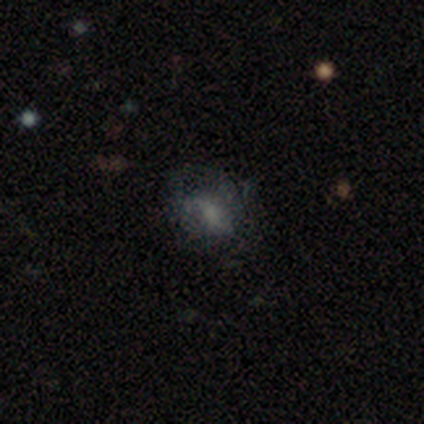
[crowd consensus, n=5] Smooth or featured? featured or disk (60%)
Edge-on disk? no (100%)
Bar? no (67%)
Spiral arms? no (100%)
Bulge size? none (67%)
Merging? none (40%, tied with major disturbance)